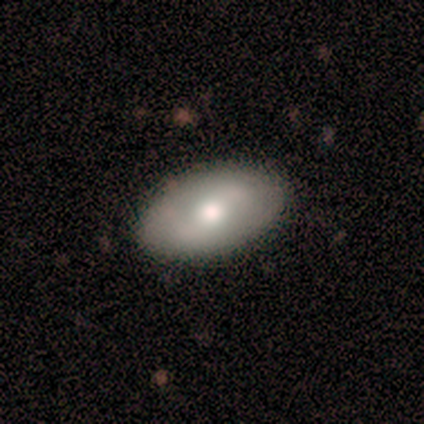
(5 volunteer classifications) A smooth galaxy with no disk features (80%) that is in between round and cigar-shaped (100%).

Vote fractions:
- Smooth or featured? smooth: 80% / featured or disk: 20% / star or artifact: 0%
- How rounded? in between: 100% / round: 0% / cigar-shaped: 0%
- Merging? none: 100% / minor disturbance: 0% / major disturbance: 0% / merger: 0%